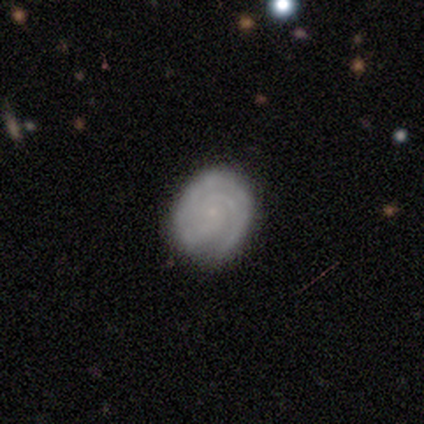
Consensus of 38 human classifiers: A featured or disk galaxy (79%) with no bar (79%), 2 (48%) tight (85%) spiral arms (93%) and a small central bulge (76%).

Vote fractions:
- Smooth or featured? featured or disk: 79% / smooth: 18% / star or artifact: 3%
- Edge-on disk? no: 97% / yes: 3%
- Bar? no: 79% / weak: 21% / strong: 0%
- Spiral arms? yes: 93% / no: 7%
- Spiral winding? tight: 85% / medium: 15% / loose: 0%
- Spiral arm count? 2: 48% / 3: 33% / can't tell: 19% / 1: 0% / 4: 0% / more than 4: 0%
- Bulge size? small: 76% / none: 14% / moderate: 10% / dominant: 0% / large: 0%
- Merging? none: 78% / minor disturbance: 16% / major disturbance: 3% / merger: 3%